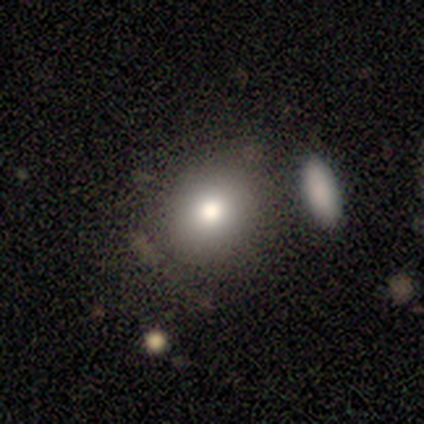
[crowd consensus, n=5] A smooth galaxy with no disk features (80%) that is round (75%). Merging: none (100%).